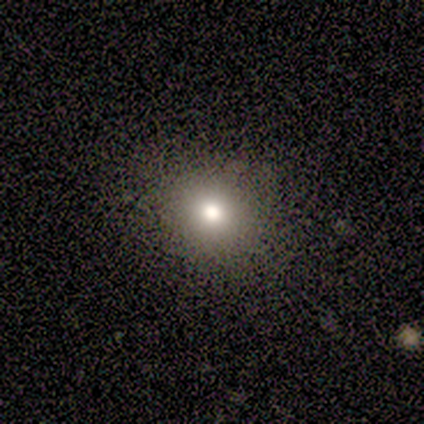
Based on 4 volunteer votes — A smooth galaxy with no disk features (100%) that is round (50%, tied with in between).

Vote fractions:
- Smooth or featured? smooth: 100% / featured or disk: 0% / star or artifact: 0%
- How rounded? round: 50% (tied) / in between: 50% (tied) / cigar-shaped: 0%
- Merging? none: 100% / minor disturbance: 0% / major disturbance: 0% / merger: 0%